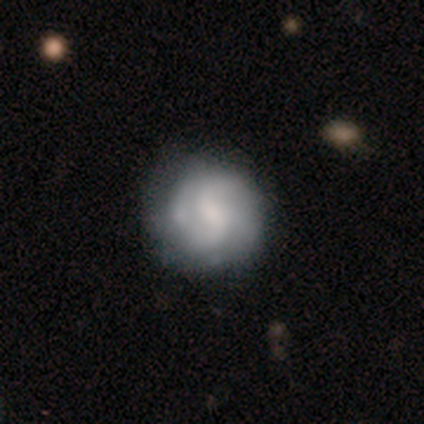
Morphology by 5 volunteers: A smooth galaxy with no disk features (60%) that is round (100%). Merging: none (80%).